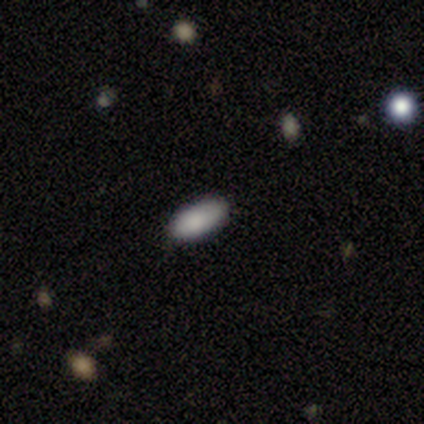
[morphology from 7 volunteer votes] smooth_or_featured: smooth (p=1.00)
how_rounded: in between (p=0.71) [alt: cigar-shaped p=0.29]
merging: none (p=0.71) [alt: major disturbance p=0.29]